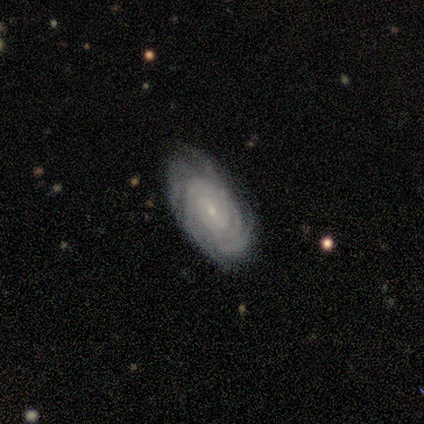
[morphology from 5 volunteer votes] Volunteers were most divided on "bar": weak: 60%, no: 40%, strong: 0%. More confident: smooth or featured — featured or disk (100%); edge-on disk — no (100%); spiral arms — yes (100%); spiral winding — tight (100%); bulge size — small (100%); merging — none (100%); spiral arm count — 4 (60%).